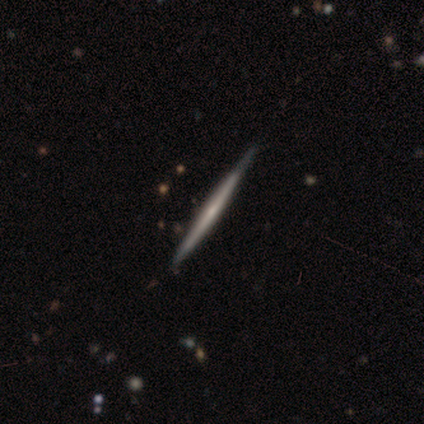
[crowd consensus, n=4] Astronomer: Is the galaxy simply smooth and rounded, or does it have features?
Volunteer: featured or disk — 100%.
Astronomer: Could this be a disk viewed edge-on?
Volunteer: yes — 100%.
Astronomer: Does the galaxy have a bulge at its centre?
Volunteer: none — 100%.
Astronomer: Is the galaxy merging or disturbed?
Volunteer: none — 75%.